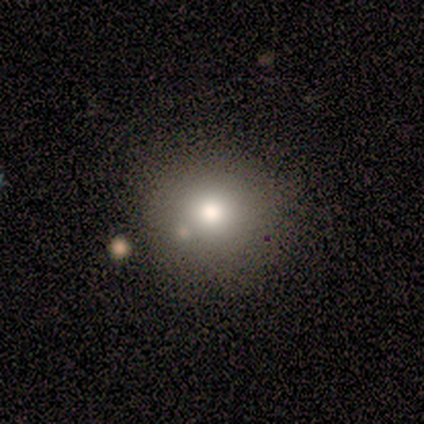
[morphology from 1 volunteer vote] This is clearly a smooth galaxy (100%). How rounded: clearly round (100%). Merging: clearly none (100%).